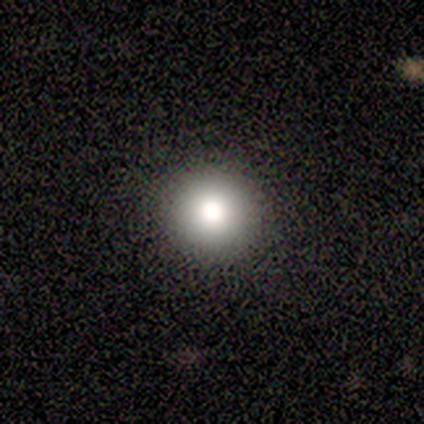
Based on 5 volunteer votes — Overall: smooth (80%). How rounded: round (100%). Merging: none (80%).